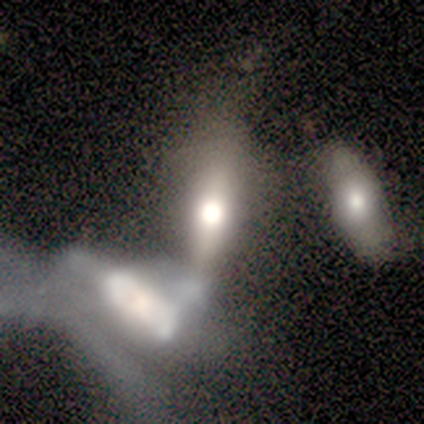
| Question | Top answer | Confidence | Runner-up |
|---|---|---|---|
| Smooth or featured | featured or disk | 53% | smooth (40%) |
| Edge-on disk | no | 65% | yes (35%) |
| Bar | no | 68% | strong (18%) |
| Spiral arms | no | 100% | — |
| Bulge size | large | 39% | dominant (29%) |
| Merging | merger | 65% | major disturbance (17%) |